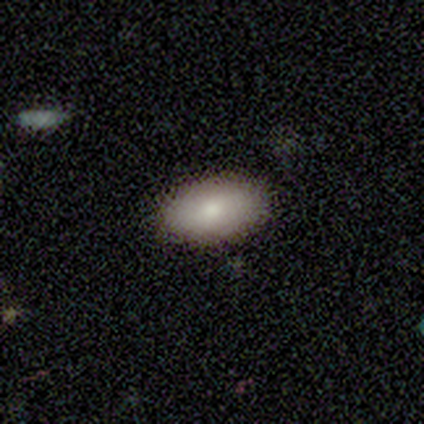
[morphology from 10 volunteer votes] A smooth galaxy with no disk features (100%) that is in between round and cigar-shaped (100%). Merging: none (80%).